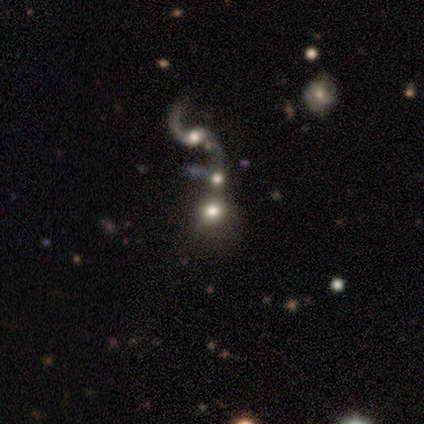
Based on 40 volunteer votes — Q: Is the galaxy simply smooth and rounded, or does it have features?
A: featured or disk — 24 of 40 (60%).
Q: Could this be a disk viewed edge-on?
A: no — 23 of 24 (96%).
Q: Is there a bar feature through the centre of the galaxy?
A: no — 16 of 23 (70%).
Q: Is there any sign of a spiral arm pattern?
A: yes — 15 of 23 (65%).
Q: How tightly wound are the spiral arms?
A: loose — 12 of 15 (80%).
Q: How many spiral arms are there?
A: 2 — 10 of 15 (67%).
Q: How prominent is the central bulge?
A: moderate — 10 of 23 (43%).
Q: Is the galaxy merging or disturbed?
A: merger — 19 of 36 (53%).